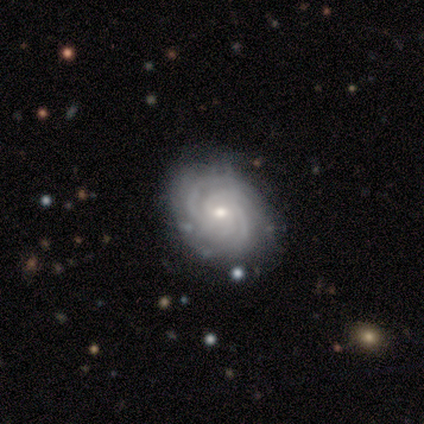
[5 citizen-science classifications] smooth_or_featured: featured or disk (p=1.00)
disk_edge_on: no (p=1.00)
bar: no (p=0.80) [alt: weak p=0.20]
has_spiral_arms: yes (p=1.00)
spiral_winding: tight (p=1.00)
spiral_arm_count: 4 (p=0.60) [alt: 3 p=0.20]
bulge_size: small (p=0.60) [alt: moderate p=0.40]
merging: none (p=1.00)